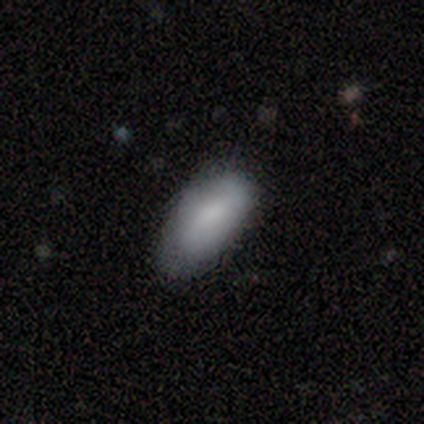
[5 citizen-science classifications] smooth-or-featured: smooth: 100% | featured or disk: 0% | star or artifact: 0%
  how-rounded: in between: 100% | round: 0% | cigar-shaped: 0%
  merging: none: 60% | minor disturbance: 40% | major disturbance: 0% | merger: 0%